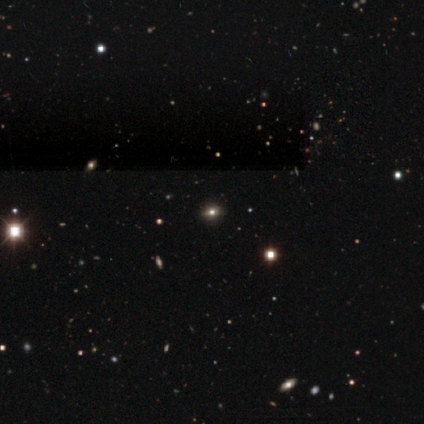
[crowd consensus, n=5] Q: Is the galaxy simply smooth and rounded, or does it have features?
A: smooth — 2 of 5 (40%, tied with star or artifact).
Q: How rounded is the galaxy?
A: round — 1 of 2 (50%, tied with in between).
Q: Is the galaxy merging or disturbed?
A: none — 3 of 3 (100%).